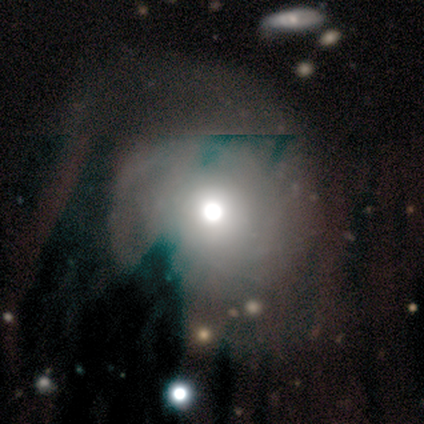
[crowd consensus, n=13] This appears to be a smooth galaxy with no disk features (46%) that is round (83%). Merging: none (64%).